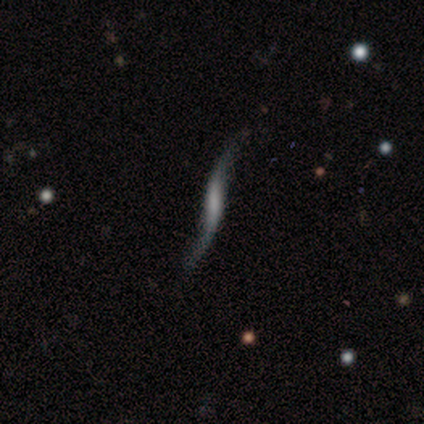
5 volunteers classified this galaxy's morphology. This appears to be a featured or disk galaxy (80%) viewed edge-on (50%, tied with no) with no central bulge (50%, tied with rounded). Merging: none (60%).